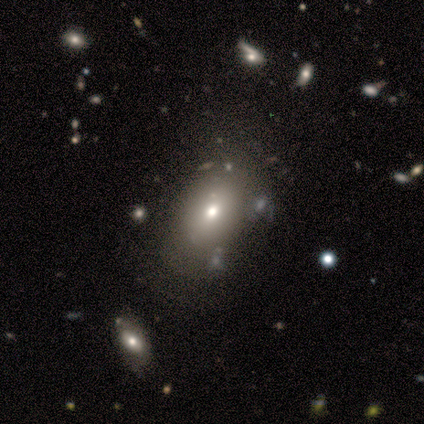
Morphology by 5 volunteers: A smooth galaxy with no disk features (80%) that is in between round and cigar-shaped (75%).

Vote fractions:
- Smooth or featured? smooth: 80% / featured or disk: 20% / star or artifact: 0%
- How rounded? in between: 75% / round: 25% / cigar-shaped: 0%
- Merging? none: 80% / minor disturbance: 20% / major disturbance: 0% / merger: 0%